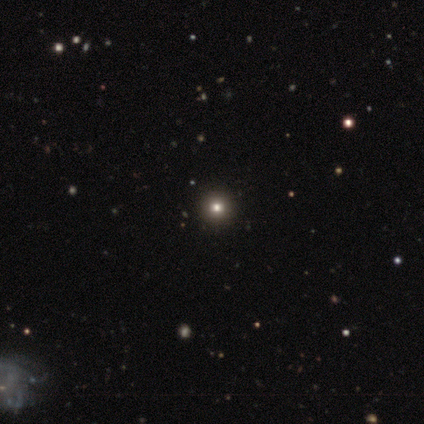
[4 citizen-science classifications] A smooth galaxy with no disk features (75%) that is round (100%).

Vote fractions:
- Smooth or featured? smooth: 75% / star or artifact: 25% / featured or disk: 0%
- How rounded? round: 100% / in between: 0% / cigar-shaped: 0%
- Merging? none: 67% / minor disturbance: 33% / major disturbance: 0% / merger: 0%